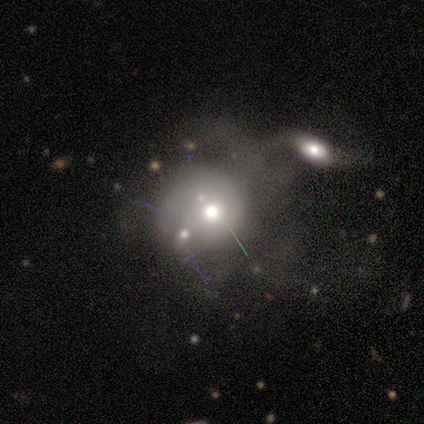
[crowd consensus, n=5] smooth_or_featured: smooth (p=0.80) [alt: featured or disk p=0.20]
how_rounded: round (p=1.00)
merging: none (p=0.40) [tied with: merger p=0.40]